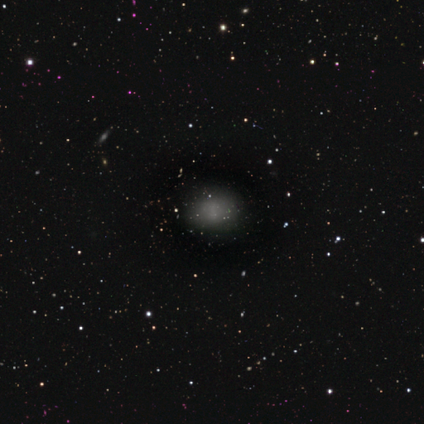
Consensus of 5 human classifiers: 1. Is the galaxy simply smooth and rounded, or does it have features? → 80% smooth, 20% featured or disk, 0% star or artifact.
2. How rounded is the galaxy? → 75% in between, 25% round, 0% cigar-shaped.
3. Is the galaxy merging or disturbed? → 80% none, 20% minor disturbance, 0% major disturbance, 0% merger.